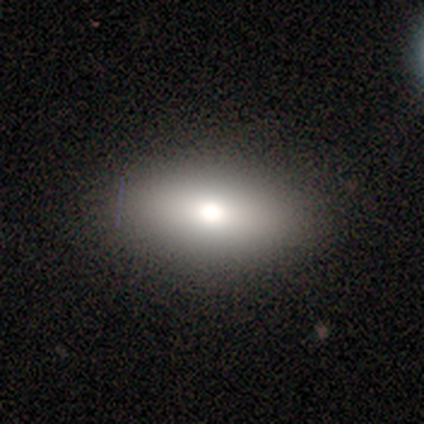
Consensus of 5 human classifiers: Volunteers were most divided on "smooth or featured": smooth: 60%, featured or disk: 40%, star or artifact: 0%. More confident: merging — none (100%); how rounded — in between (67%).